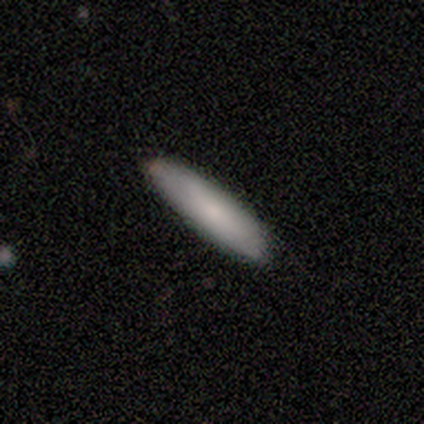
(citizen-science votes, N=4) smooth_or_featured: smooth (p=1.00)
how_rounded: cigar-shaped (p=0.75) [alt: in between p=0.25]
merging: none (p=1.00)